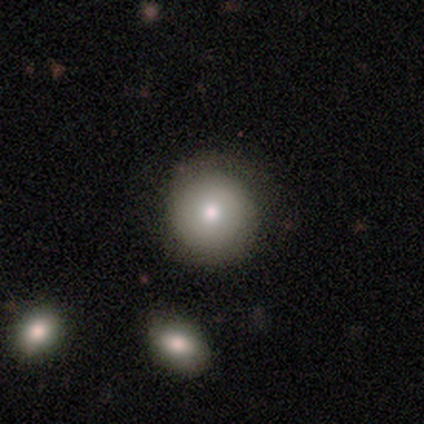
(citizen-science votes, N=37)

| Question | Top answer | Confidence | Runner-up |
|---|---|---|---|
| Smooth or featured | smooth | 65% | featured or disk (24%) |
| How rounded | round | 96% | in between (4%) |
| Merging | none | 88% | minor disturbance (9%) |